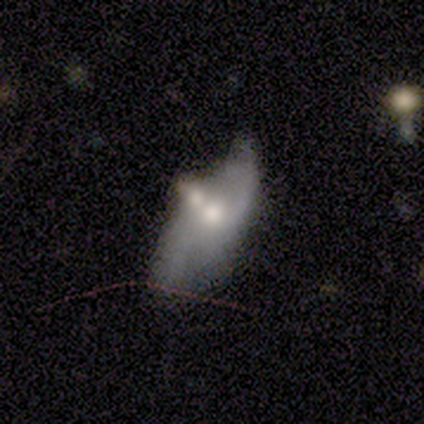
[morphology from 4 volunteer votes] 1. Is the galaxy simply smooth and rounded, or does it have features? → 50% smooth (tied), 50% featured or disk (tied), 0% star or artifact.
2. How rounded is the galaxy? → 100% in between, 0% round, 0% cigar-shaped.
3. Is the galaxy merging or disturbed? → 75% merger, 25% major disturbance, 0% none, 0% minor disturbance.